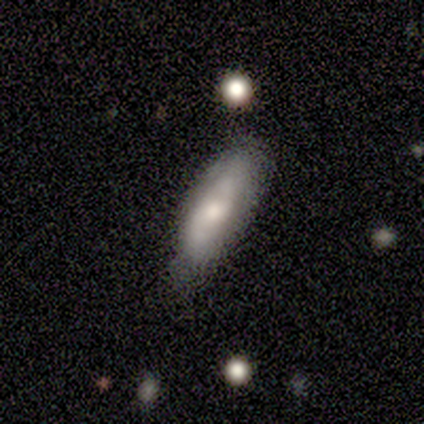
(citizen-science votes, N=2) Smooth or featured? 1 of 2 (50%, tied with featured or disk) said smooth. How rounded? 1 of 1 (100%) said cigar-shaped. Merging? 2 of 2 (100%) said none.